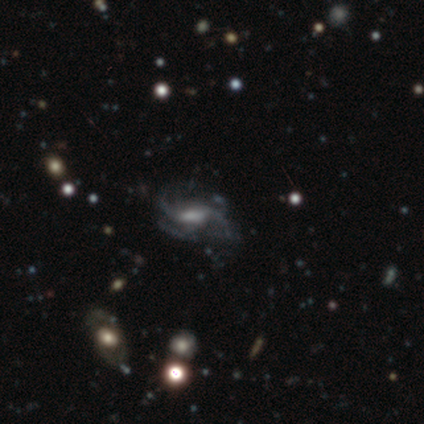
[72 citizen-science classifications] Q: Smooth or featured?
A: featured or disk (88%); runner-up: star or artifact (10%)
Q: Edge-on disk?
A: no (98%); runner-up: yes (2%)
Q: Bar?
A: no (44%); runner-up: weak (40%)
Q: Spiral arms?
A: yes (90%); runner-up: no (10%)
Q: Spiral winding?
A: loose (54%); runner-up: medium (32%)
Q: Spiral arm count?
A: 3 (27%); runner-up: 2 (25%)
Q: Bulge size?
A: none (37%); runner-up: small (26%)
Q: Merging?
A: none (46%); runner-up: major disturbance (28%)